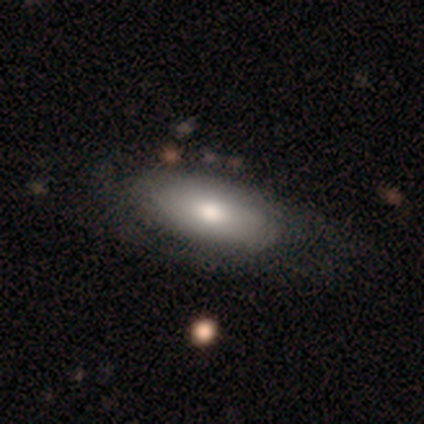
smooth 67%, star or artifact 33%, featured or disk 0%. Down the decision tree: how rounded — in between (100%); merging — none (100%).